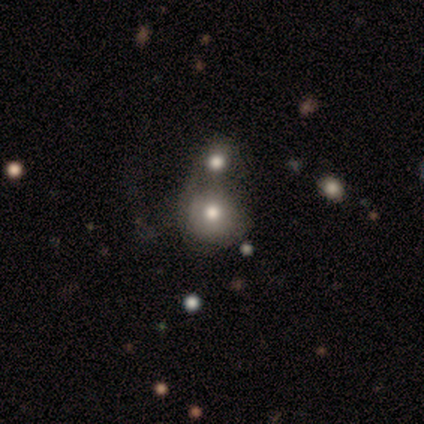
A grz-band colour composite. It shows a smooth galaxy with no disk features (100%) that is round (80%). Merging: merger (80%).